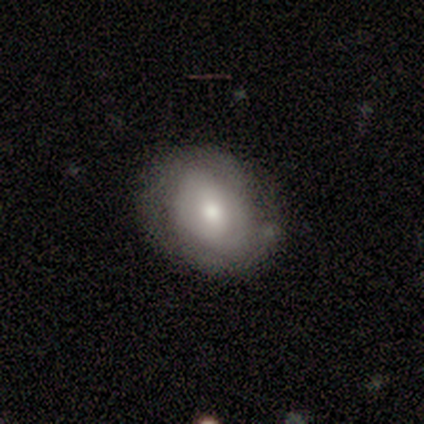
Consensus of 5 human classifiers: A smooth galaxy with no disk features (60%) that is round (67%). Merging: none (60%).